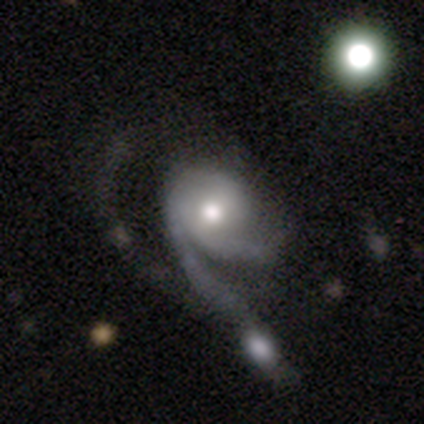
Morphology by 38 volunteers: A featured or disk galaxy (87%) with no bar (74%), 2 (50%) medium (43%) spiral arms (97%) and a moderate central bulge (68%).

Vote fractions:
- Smooth or featured? featured or disk: 87% / smooth: 11% / star or artifact: 3%
- Edge-on disk? no: 94% / yes: 6%
- Bar? no: 74% / weak: 16% / strong: 10%
- Spiral arms? yes: 97% / no: 3%
- Spiral winding? medium: 43% / loose: 40% / tight: 17%
- Spiral arm count? 2: 50% / 3: 20% / 1: 17% / can't tell: 13% / 4: 0% / more than 4: 0%
- Bulge size? moderate: 68% / large: 16% / small: 13% / dominant: 3% / none: 0%
- Merging? major disturbance: 35% / merger: 32% / none: 16% / minor disturbance: 16%